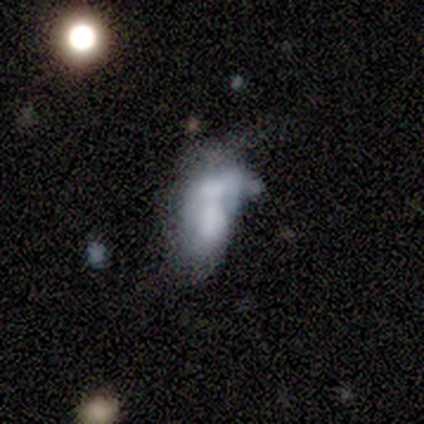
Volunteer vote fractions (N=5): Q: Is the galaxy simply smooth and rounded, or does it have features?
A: featured or disk — 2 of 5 (40%, tied with star or artifact).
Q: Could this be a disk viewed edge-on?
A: no — 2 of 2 (100%).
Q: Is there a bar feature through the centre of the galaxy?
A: no — 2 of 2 (100%).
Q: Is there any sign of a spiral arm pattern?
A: no — 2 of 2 (100%).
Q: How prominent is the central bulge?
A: none — 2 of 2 (100%).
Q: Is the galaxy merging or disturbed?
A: none — 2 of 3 (67%).